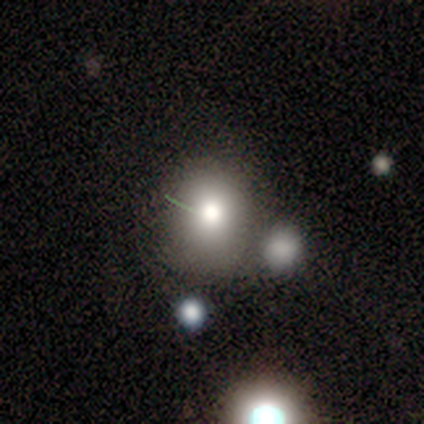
Overall: smooth (40%, tied with featured or disk). How rounded: in between (100%). Merging: none (50%; minor disturbance 25%).